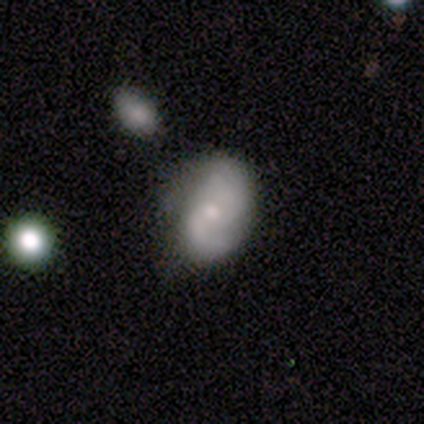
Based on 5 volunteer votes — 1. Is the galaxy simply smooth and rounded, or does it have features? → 80% featured or disk, 20% star or artifact, 0% smooth.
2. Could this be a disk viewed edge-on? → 100% no, 0% yes.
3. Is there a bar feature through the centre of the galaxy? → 50% weak (tied), 50% no (tied), 0% strong.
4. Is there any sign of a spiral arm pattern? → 75% yes, 25% no.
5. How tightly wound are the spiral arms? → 33% tight (tied), 33% medium (tied), 33% loose (tied).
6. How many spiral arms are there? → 67% 2, 33% can't tell, 0% 1, 0% 3, 0% 4, 0% more than 4.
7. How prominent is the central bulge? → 50% moderate (tied), 50% small (tied), 0% dominant, 0% large, 0% none.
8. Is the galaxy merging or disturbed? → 50% none, 25% minor disturbance, 25% merger, 0% major disturbance.